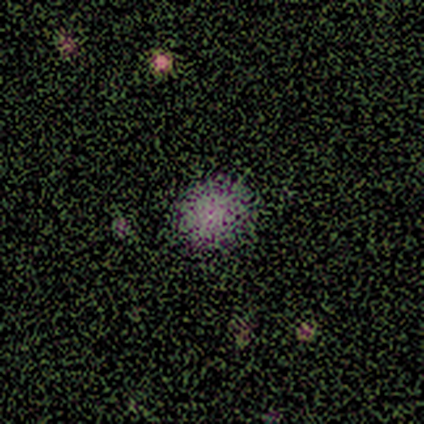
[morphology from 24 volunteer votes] type=smooth (46%); roundness=round (82%); merging=none (87%).